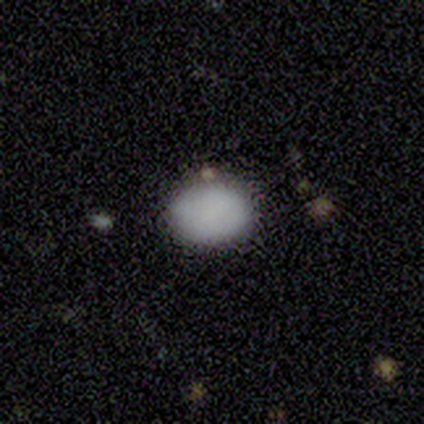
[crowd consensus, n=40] Overall: smooth (82%). How rounded: in between (55%; round 45%). Merging: none (84%).